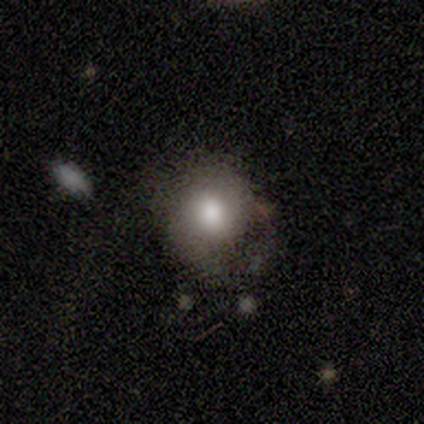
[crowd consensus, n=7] Smooth or featured? 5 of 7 (71%) said smooth. How rounded? 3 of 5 (60%) said round. Merging? 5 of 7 (71%) said none.